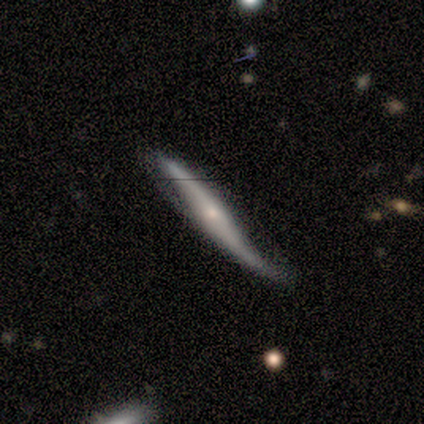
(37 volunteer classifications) This appears to be a featured or disk galaxy (81%) viewed edge-on (63%) with a rounded central bulge (74%). Merging: none (38%, tied with minor disturbance).